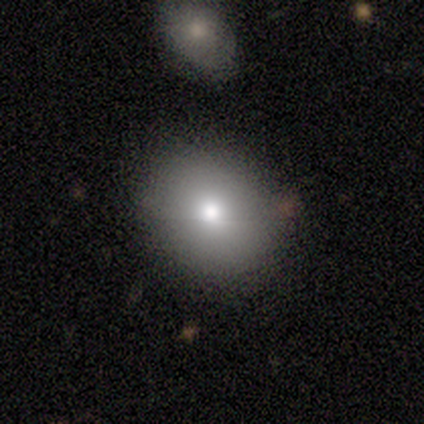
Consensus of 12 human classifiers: A smooth galaxy with no disk features (50%) that is round (83%). Merging: none (89%).